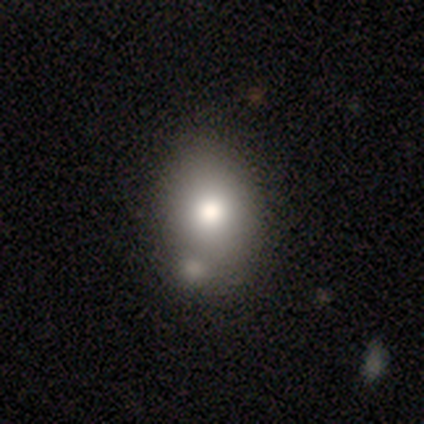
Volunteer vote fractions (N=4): Q: Smooth or featured?
A: smooth (75%); runner-up: featured or disk (25%)
Q: How rounded?
A: in between (100%)
Q: Merging?
A: none (50%); tied with: merger (50%)